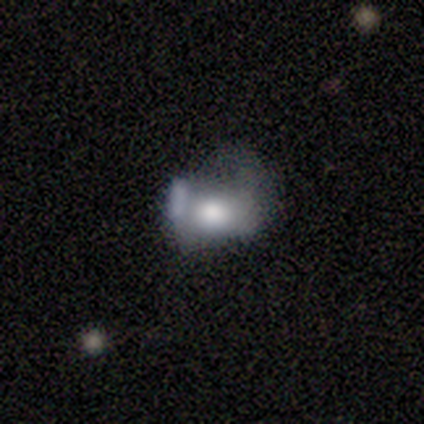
A featured or disk galaxy (60%) with no bar (100%), no spiral arms (100%) and a moderate central bulge (67%).

Vote fractions:
- Smooth or featured? featured or disk: 60% / smooth: 40% / star or artifact: 0%
- Edge-on disk? no: 100% / yes: 0%
- Bar? no: 100% / strong: 0% / weak: 0%
- Spiral arms? no: 100% / yes: 0%
- Bulge size? moderate: 67% / large: 33% / dominant: 0% / small: 0% / none: 0%
- Merging? major disturbance: 80% / merger: 20% / none: 0% / minor disturbance: 0%